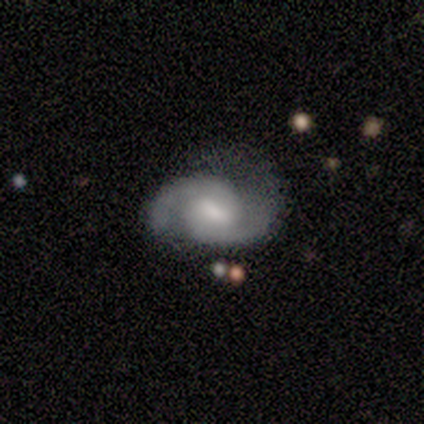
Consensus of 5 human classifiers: Morphology: type=featured or disk (100%); edge-on=no (100%); bar=weak (100%); spiral arms=yes (80%); winding=medium (75%); arm count=2 (100%); bulge=moderate (80%); merging=none (40%, tied with minor disturbance).